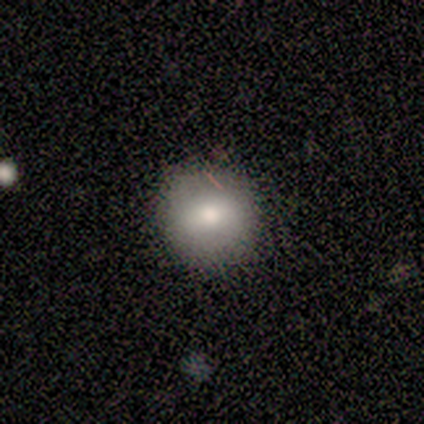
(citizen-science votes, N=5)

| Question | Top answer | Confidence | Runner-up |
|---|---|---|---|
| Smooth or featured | smooth | 60% | star or artifact (40%) |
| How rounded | round | 100% | — |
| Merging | none | 100% | — |